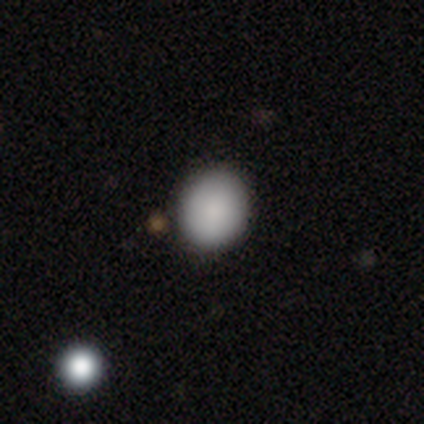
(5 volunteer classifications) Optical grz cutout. It shows a smooth galaxy with no disk features (100%) that is round (60%). Merging: none (100%).